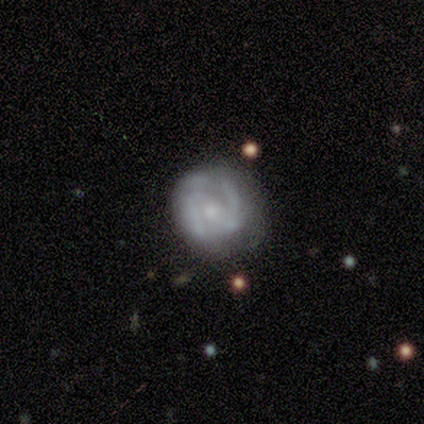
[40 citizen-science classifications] This is clearly a featured or disk galaxy (82%). It is clearly not viewed edge-on (97%). Bar: marginally no (44%). Spiral arm pattern: clearly yes (94%). Spiral arm count: likely 2 (60%). Spiral winding: marginally tight (43%). Central bulge: possibly small (47%). Merging: likely none (64%).